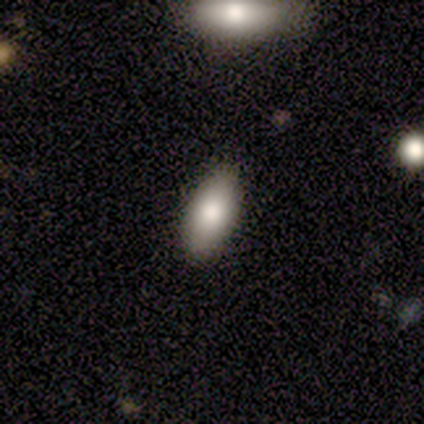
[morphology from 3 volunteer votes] Overall: smooth (100%). How rounded: in between (67%; cigar-shaped 33%). Merging: none (100%).